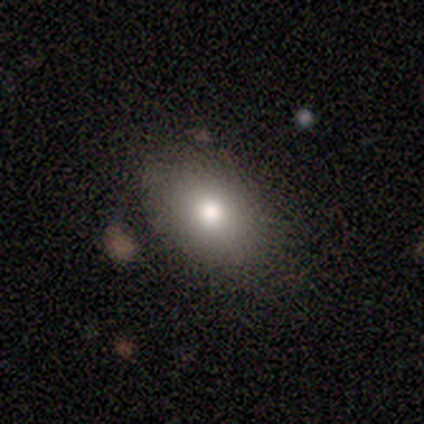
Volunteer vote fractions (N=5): Smooth or featured? 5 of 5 (100%) said smooth. How rounded? 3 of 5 (60%) said round. Merging? 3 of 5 (60%) said none.